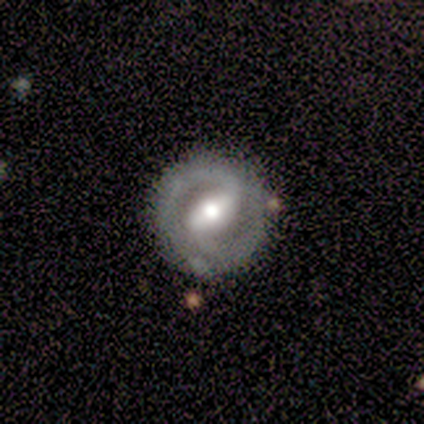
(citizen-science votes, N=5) smooth_or_featured: featured or disk (p=0.80) [alt: smooth p=0.20]
disk_edge_on: no (p=1.00)
bar: strong (p=1.00)
has_spiral_arms: yes (p=0.75) [alt: no p=0.25]
spiral_winding: tight (p=0.67) [alt: loose p=0.33]
spiral_arm_count: 2 (p=0.67) [alt: can't tell p=0.33]
bulge_size: moderate (p=0.75) [alt: small p=0.25]
merging: none (p=0.60) [alt: minor disturbance p=0.40]